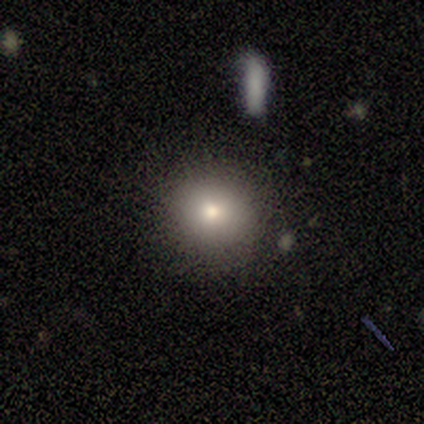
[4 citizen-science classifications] smooth-or-featured: smooth: 100% | featured or disk: 0% | star or artifact: 0%
  how-rounded: round: 75% | in between: 25% | cigar-shaped: 0%
  merging: none: 100% | minor disturbance: 0% | major disturbance: 0% | merger: 0%